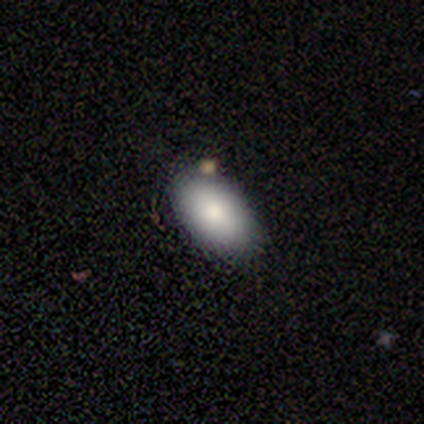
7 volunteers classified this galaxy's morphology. Smooth or featured?
  - smooth: 71% *
  - star or artifact: 29%
  - featured or disk: 0%
How rounded?
  - in between: 100% *
  - round: 0%
  - cigar-shaped: 0%
Merging?
  - none: 80% *
  - minor disturbance: 20%
  - major disturbance: 0%
  - merger: 0%